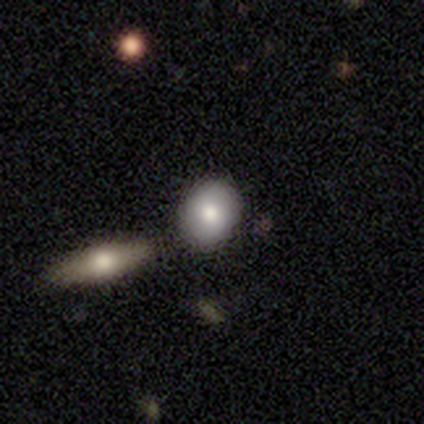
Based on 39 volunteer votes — Volunteers were most divided on "how rounded": round: 61%, in between: 39%, cigar-shaped: 0%. More confident: smooth or featured — smooth (72%); merging — none (65%).